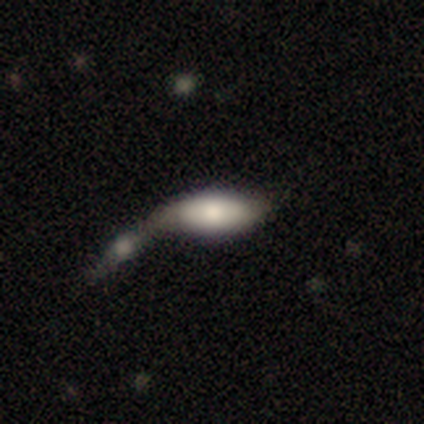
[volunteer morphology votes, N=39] A smooth galaxy with no disk features (64%) that is in between round and cigar-shaped (76%).

Vote fractions:
- Smooth or featured? smooth: 64% / featured or disk: 18% / star or artifact: 18%
- How rounded? in between: 76% / cigar-shaped: 20% / round: 4%
- Merging? merger: 69% / minor disturbance: 12% / none: 9% / major disturbance: 9%